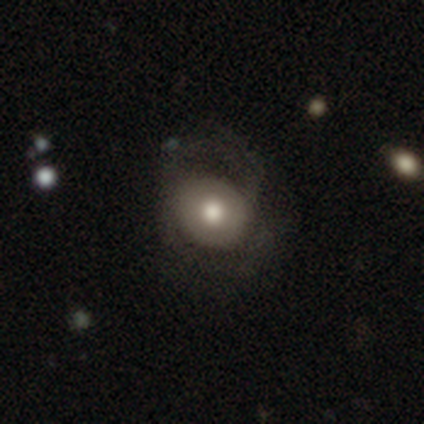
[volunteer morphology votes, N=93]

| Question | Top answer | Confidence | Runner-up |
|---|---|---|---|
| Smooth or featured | smooth | 58% | featured or disk (33%) |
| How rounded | round | 72% | in between (26%) |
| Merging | none | 51% | major disturbance (32%) |